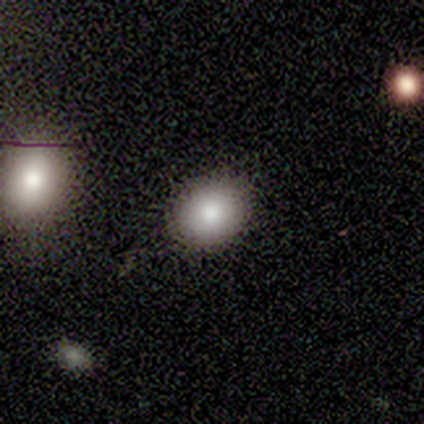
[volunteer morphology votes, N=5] Smooth or featured? smooth (80%)
How rounded? round (100%)
Merging? none (50%)